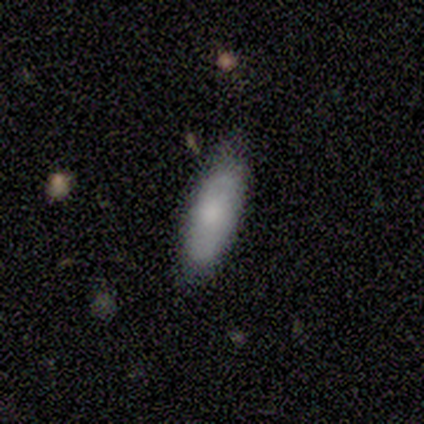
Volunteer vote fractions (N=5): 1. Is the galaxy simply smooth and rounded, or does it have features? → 80% smooth, 20% featured or disk, 0% star or artifact.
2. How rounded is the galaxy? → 75% cigar-shaped, 25% in between, 0% round.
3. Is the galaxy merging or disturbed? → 80% none, 20% minor disturbance, 0% major disturbance, 0% merger.